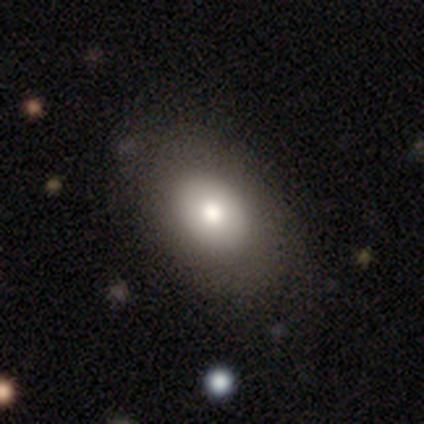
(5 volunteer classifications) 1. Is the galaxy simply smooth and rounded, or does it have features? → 100% smooth, 0% featured or disk, 0% star or artifact.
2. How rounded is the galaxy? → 100% in between, 0% round, 0% cigar-shaped.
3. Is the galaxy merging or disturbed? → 100% none, 0% minor disturbance, 0% major disturbance, 0% merger.